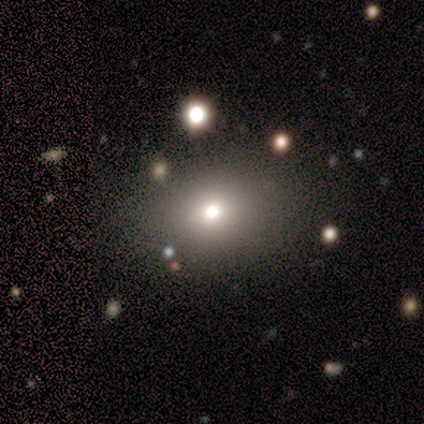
smooth_or_featured: smooth (p=0.40) [tied with: featured or disk p=0.40]
how_rounded: round (p=1.00)
merging: none (p=1.00)